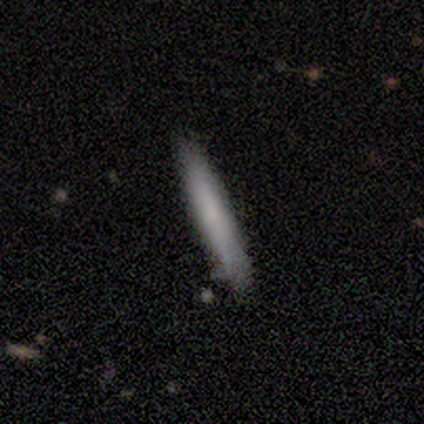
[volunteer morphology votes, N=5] Smooth or featured: smooth — 80% (featured or disk — 20%)
How rounded: cigar-shaped — 100%
Merging: none — 80% (minor disturbance — 20%)